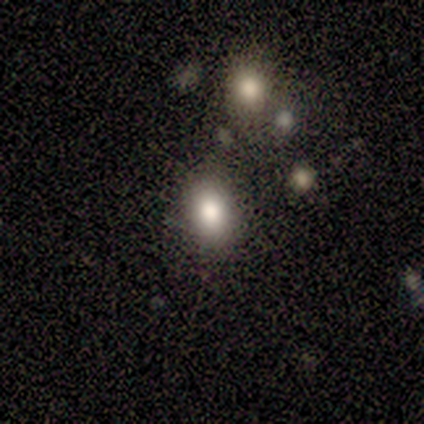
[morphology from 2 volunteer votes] Q: Smooth or featured?
A: smooth (100%)
Q: How rounded?
A: round (100%)
Q: Merging?
A: none (100%)